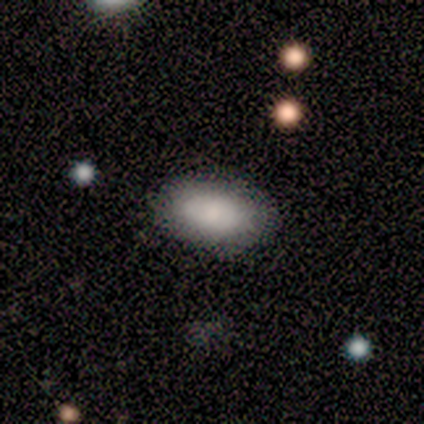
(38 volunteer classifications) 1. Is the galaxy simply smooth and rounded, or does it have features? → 89% smooth, 11% featured or disk, 0% star or artifact.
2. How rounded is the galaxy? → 97% in between, 3% round, 0% cigar-shaped.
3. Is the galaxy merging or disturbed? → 92% none, 5% minor disturbance, 3% major disturbance, 0% merger.